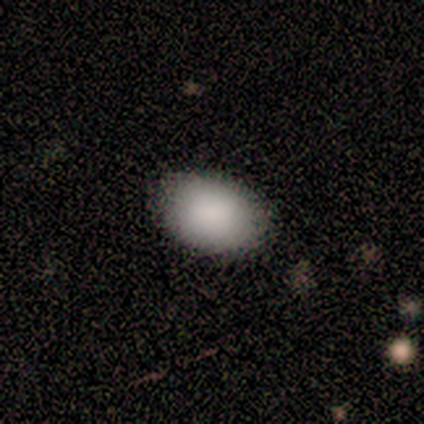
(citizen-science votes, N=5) Volunteers were most divided on "merging": none: 80%, minor disturbance: 20%, major disturbance: 0%, merger: 0%. More confident: smooth or featured — smooth (100%); how rounded — in between (100%).